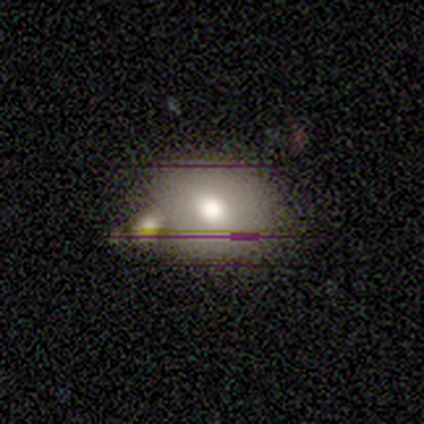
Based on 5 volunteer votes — Smooth or featured?
  - smooth: 80% *
  - featured or disk: 20%
  - star or artifact: 0%
How rounded?
  - round: 100% *
  - in between: 0%
  - cigar-shaped: 0%
Merging?
  - minor disturbance: 40% * (tied)
  - merger: 40% * (tied)
  - none: 20%
  - major disturbance: 0%